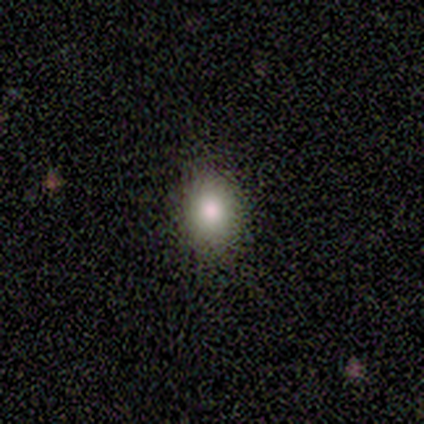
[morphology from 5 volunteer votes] Volunteers were most divided on "how rounded" (2-way tie): round: 50%, in between: 50%, cigar-shaped: 0%. More confident: merging — none (100%); smooth or featured — smooth (80%).